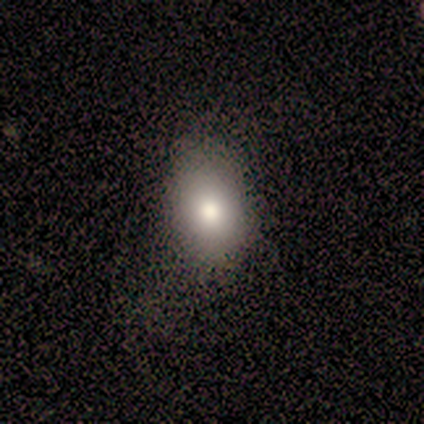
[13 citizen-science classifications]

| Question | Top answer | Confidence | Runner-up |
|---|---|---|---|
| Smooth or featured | smooth | 92% | star or artifact (8%) |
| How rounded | in between | 83% | round (17%) |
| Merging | none | 83% | minor disturbance (17%) |